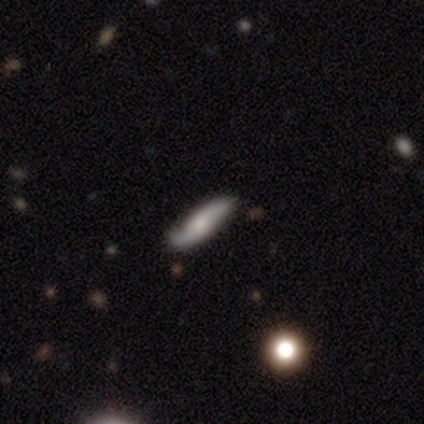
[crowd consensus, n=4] smooth 50% (tied), featured or disk 50% (tied), star or artifact 0%. Down the decision tree: how rounded — in between (50%, tied with cigar-shaped); merging — none (50%).